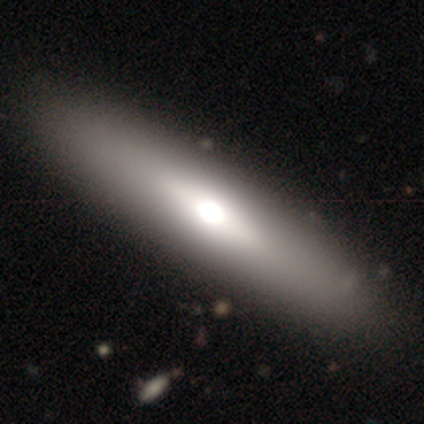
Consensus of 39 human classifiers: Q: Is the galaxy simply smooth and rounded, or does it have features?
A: smooth — 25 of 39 (64%).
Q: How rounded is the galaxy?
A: cigar-shaped — 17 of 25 (68%).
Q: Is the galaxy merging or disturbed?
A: none — 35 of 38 (92%).